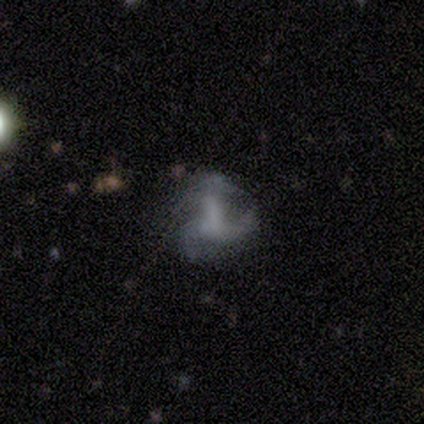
Smooth or featured? 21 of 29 (72%) said featured or disk. Edge-on disk? 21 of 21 (100%) said no. Bar? 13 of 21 (62%) said no. Spiral arms? 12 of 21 (57%) said yes. Spiral winding? 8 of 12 (67%) said loose. Spiral arm count? 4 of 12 (33%) said 3. Bulge size? 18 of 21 (86%) said none. Merging? 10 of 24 (42%) said major disturbance.